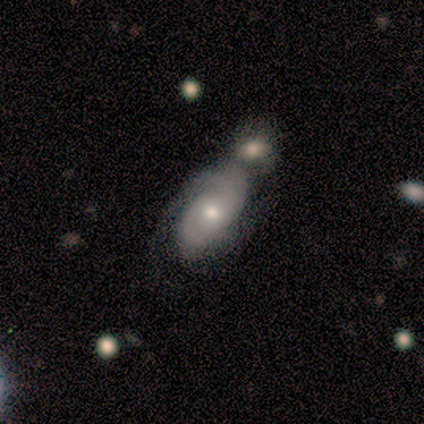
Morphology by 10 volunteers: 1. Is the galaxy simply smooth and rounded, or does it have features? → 70% featured or disk, 20% smooth, 10% star or artifact.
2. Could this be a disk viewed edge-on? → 86% no, 14% yes.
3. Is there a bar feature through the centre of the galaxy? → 83% no, 17% weak, 0% strong.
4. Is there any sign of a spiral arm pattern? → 100% yes, 0% no.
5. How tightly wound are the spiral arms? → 67% tight, 17% medium, 17% loose.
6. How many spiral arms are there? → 33% 4 (tied), 33% can't tell (tied), 17% 2, 17% 3, 0% 1, 0% more than 4.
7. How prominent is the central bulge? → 67% small, 33% moderate, 0% dominant, 0% large, 0% none.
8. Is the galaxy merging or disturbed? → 56% minor disturbance, 33% merger, 11% none, 0% major disturbance.